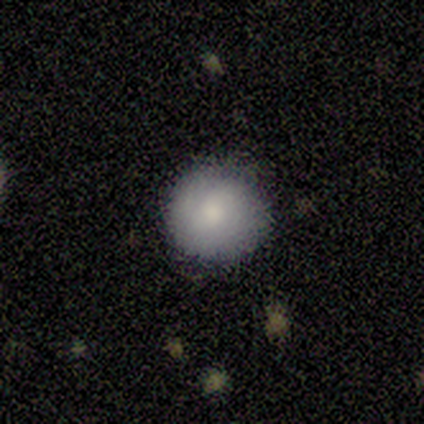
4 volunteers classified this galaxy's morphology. This appears to be a smooth galaxy with no disk features (75%) that is round (100%). Merging: none (100%).